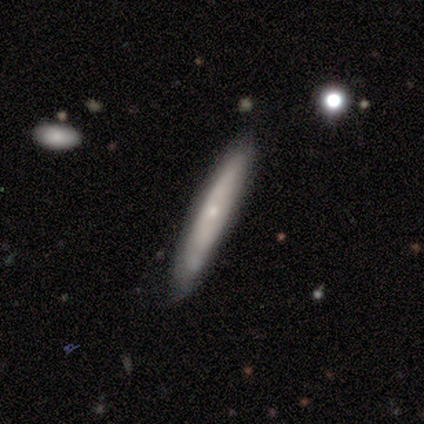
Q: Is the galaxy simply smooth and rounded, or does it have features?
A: smooth — 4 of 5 (80%).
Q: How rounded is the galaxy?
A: cigar-shaped — 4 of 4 (100%).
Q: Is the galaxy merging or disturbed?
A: none — 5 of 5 (100%).